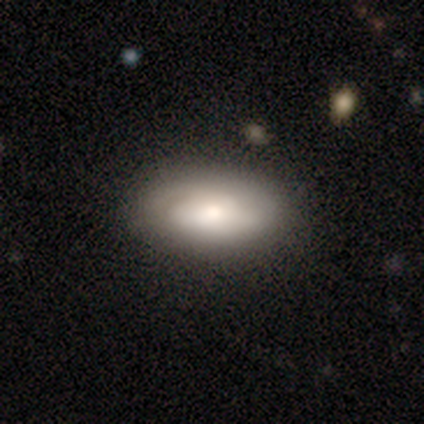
Morphology: type=smooth (60%); roundness=in between (100%); merging=none (100%).